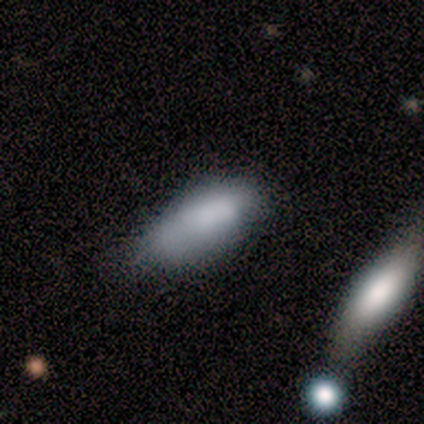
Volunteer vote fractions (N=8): Smooth or featured? 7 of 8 (88%) said smooth. How rounded? 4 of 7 (57%) said in between. Merging? 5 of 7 (71%) said minor disturbance.